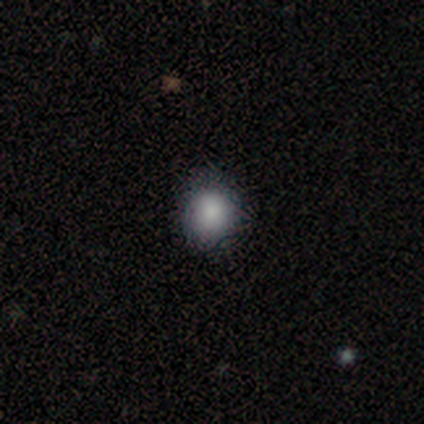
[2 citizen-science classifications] Smooth or featured? 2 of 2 (100%) said smooth. How rounded? 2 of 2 (100%) said round. Merging? 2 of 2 (100%) said none.